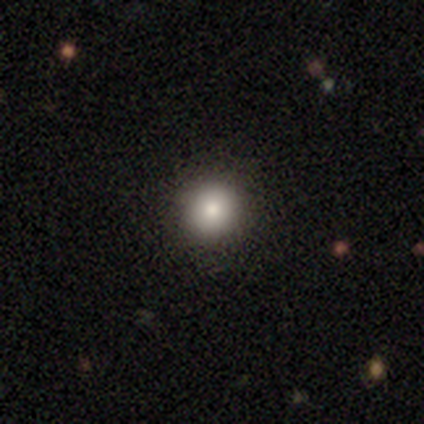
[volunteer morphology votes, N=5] Smooth or featured: smooth — 100%
How rounded: round — 100%
Merging: none — 80% (minor disturbance — 20%)